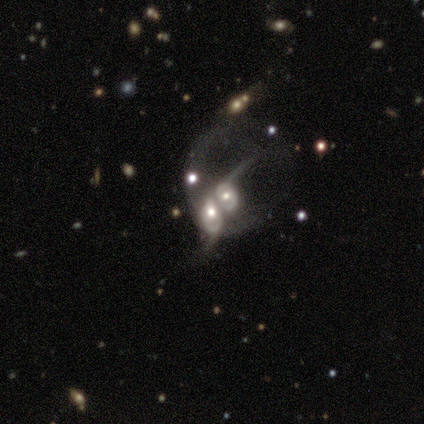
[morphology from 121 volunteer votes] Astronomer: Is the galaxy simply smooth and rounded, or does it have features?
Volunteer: featured or disk — 80%.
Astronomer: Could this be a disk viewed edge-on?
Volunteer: no — 98%.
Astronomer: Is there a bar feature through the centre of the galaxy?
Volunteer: no — 84%.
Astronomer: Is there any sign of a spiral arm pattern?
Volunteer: yes — 60% (runner-up: no, 40%).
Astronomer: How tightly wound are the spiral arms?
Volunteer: loose — 54%.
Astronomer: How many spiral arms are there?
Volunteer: can't tell — 42% (runner-up: 1, 32%).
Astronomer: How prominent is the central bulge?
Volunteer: moderate — 59%.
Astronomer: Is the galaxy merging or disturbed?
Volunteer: merger — 90%.